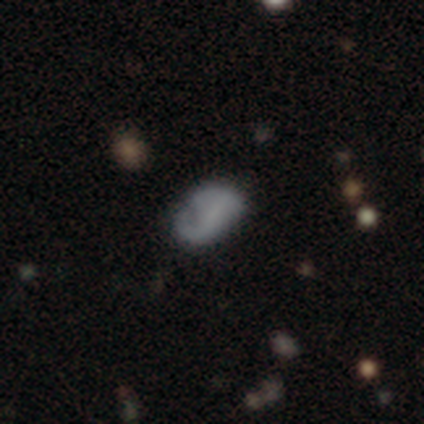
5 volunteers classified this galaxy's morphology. smooth-or-featured: featured or disk: 60% | smooth: 40% | star or artifact: 0%
  disk-edge-on: no: 100% | yes: 0%
    bar: no: 100% | strong: 0% | weak: 0%
    has-spiral-arms: no: 100% | yes: 0%
    bulge-size: none: 67% | small: 33% | dominant: 0% | large: 0% | moderate: 0%
  merging: minor disturbance: 60% | none: 20% | major disturbance: 20% | merger: 0%